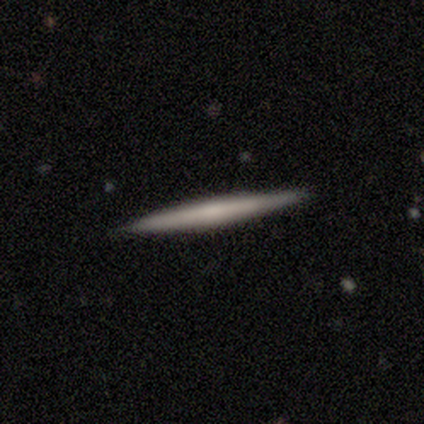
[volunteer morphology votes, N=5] This is clearly a smooth galaxy (80%). How rounded: clearly cigar-shaped (100%). Merging: clearly none (100%).